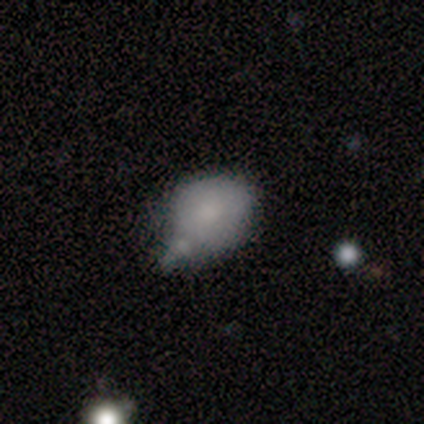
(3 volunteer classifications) Q: Smooth or featured?
A: smooth (33%); tied with: featured or disk (33%); star or artifact (33%)
Q: How rounded?
A: round (100%)
Q: Merging?
A: minor disturbance (50%); tied with: merger (50%)